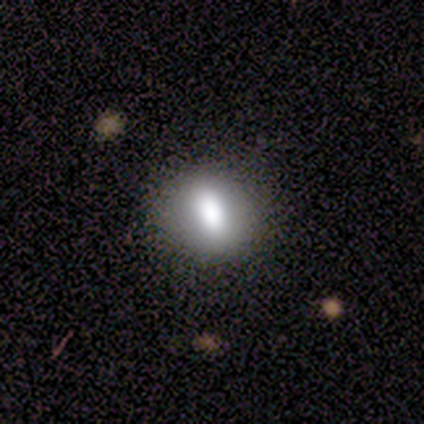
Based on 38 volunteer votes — Overall: smooth (84%). How rounded: in between (50%; round 44%). Merging: none (83%).